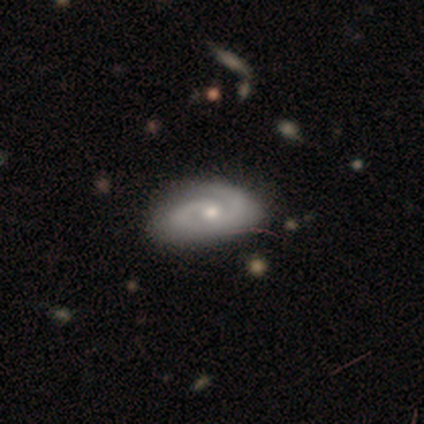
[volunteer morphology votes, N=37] Q: Smooth or featured?
A: featured or disk (89%); runner-up: smooth (8%)
Q: Edge-on disk?
A: no (97%); runner-up: yes (3%)
Q: Bar?
A: no (69%); runner-up: weak (28%)
Q: Spiral arms?
A: yes (97%); runner-up: no (3%)
Q: Spiral winding?
A: tight (42%); runner-up: medium (39%)
Q: Spiral arm count?
A: 2 (87%); runner-up: 1 (6%)
Q: Bulge size?
A: moderate (59%); runner-up: small (31%)
Q: Merging?
A: none (58%); runner-up: minor disturbance (6%)